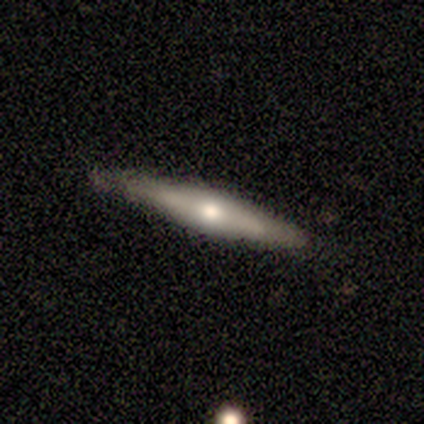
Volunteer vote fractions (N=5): Smooth or featured?
  - star or artifact: 60% *
  - smooth: 40%
  - featured or disk: 0%